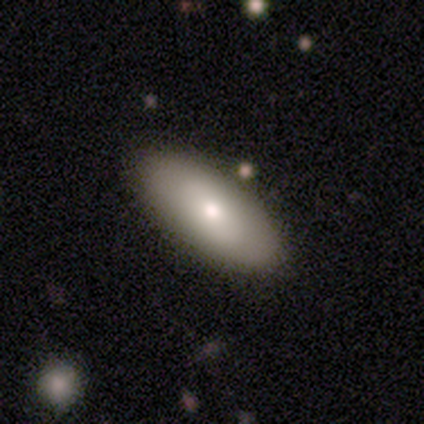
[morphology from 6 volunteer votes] Smooth or featured: smooth — 67% (featured or disk — 33%)
How rounded: in between — 75% (cigar-shaped — 25%)
Merging: none — 83% (minor disturbance — 17%)